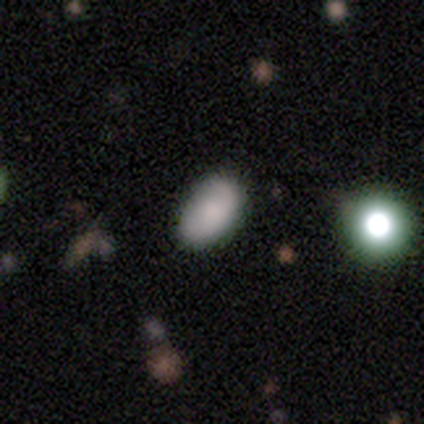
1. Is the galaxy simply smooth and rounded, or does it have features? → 50% smooth (tied), 50% featured or disk (tied), 0% star or artifact.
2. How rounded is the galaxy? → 100% in between, 0% round, 0% cigar-shaped.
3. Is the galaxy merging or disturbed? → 83% none, 17% minor disturbance, 0% major disturbance, 0% merger.